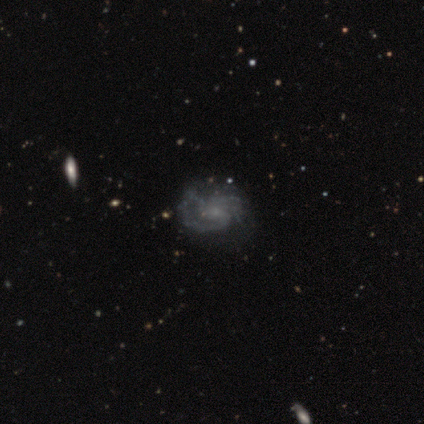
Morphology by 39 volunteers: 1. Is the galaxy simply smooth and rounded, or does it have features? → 92% featured or disk, 5% smooth, 3% star or artifact.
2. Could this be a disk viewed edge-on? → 100% no, 0% yes.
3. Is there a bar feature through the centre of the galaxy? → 64% no, 36% weak, 0% strong.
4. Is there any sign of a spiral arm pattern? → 92% yes, 8% no.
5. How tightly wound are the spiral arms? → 52% medium, 24% tight, 24% loose.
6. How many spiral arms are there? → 48% can't tell, 42% 2, 6% 4, 3% 3, 0% 1, 0% more than 4.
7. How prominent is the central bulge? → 50% none, 47% small, 3% moderate, 0% dominant, 0% large.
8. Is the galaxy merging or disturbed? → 45% none, 16% minor disturbance, 16% major disturbance, 0% merger.